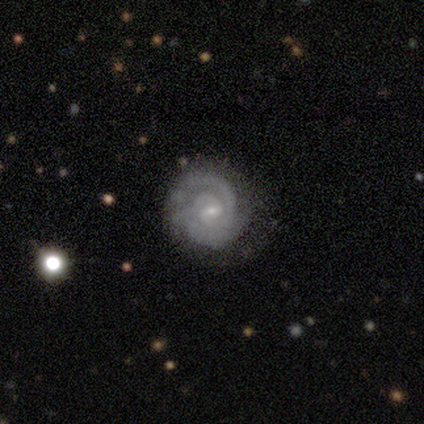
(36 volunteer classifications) A featured or disk galaxy (83%) with a weak bar (55%), 2 (79%) tight (86%) spiral arms (100%) and a small central bulge (79%).

Vote fractions:
- Smooth or featured? featured or disk: 83% / smooth: 8% / star or artifact: 8%
- Edge-on disk? no: 97% / yes: 3%
- Bar? weak: 55% / no: 38% / strong: 7%
- Spiral arms? yes: 100% / no: 0%
- Spiral winding? tight: 86% / medium: 14% / loose: 0%
- Spiral arm count? 2: 79% / 1: 7% / 3: 7% / can't tell: 7% / 4: 0% / more than 4: 0%
- Bulge size? small: 79% / moderate: 17% / none: 3% / dominant: 0% / large: 0%
- Merging? none: 73% / minor disturbance: 24% / major disturbance: 3% / merger: 0%